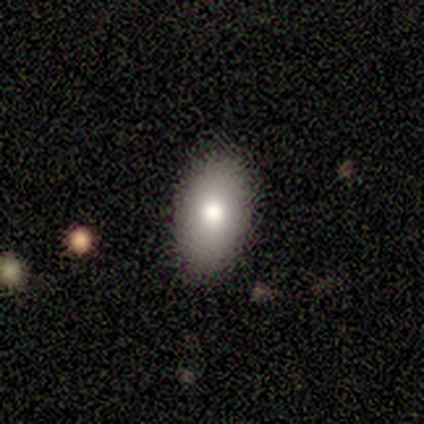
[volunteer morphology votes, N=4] Smooth or featured: smooth — 100%
How rounded: in between — 100%
Merging: none — 100%